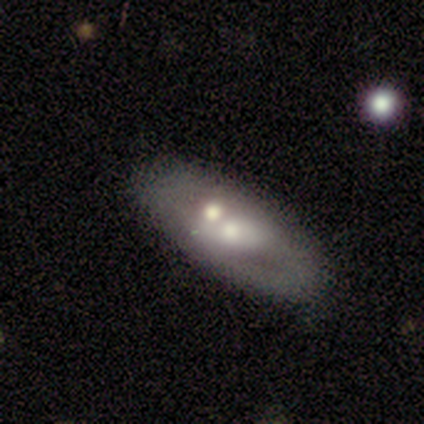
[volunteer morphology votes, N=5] type=featured or disk (80%); edge-on=no (75%); bar=no (100%); spiral arms=no (100%); bulge=moderate (67%); merging=none (80%).